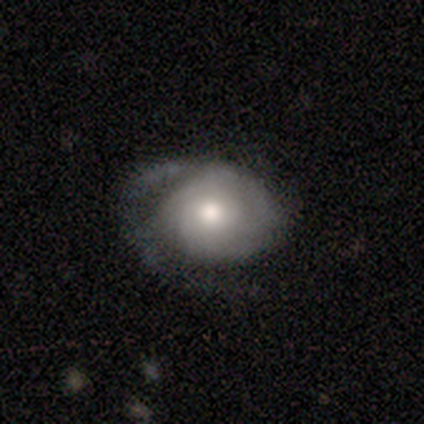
A featured or disk galaxy (90%) with no bar (100%), tight (71%) spiral arms (78%) and a moderate central bulge (78%).

Vote fractions:
- Smooth or featured? featured or disk: 90% / smooth: 10% / star or artifact: 0%
- Edge-on disk? no: 100% / yes: 0%
- Bar? no: 100% / strong: 0% / weak: 0%
- Spiral arms? yes: 78% / no: 22%
- Spiral winding? tight: 71% / medium: 14% / loose: 14%
- Spiral arm count? can't tell: 43% / 2: 29% / 1: 14% / more than 4: 14% / 3: 0% / 4: 0%
- Bulge size? moderate: 78% / small: 22% / dominant: 0% / large: 0% / none: 0%
- Merging? none: 50% / minor disturbance: 40% / major disturbance: 10% / merger: 0%